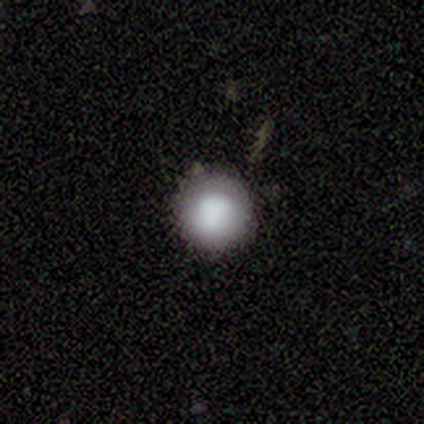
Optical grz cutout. It shows a smooth galaxy with no disk features (80%) that is round (94%). Merging: none (84%).